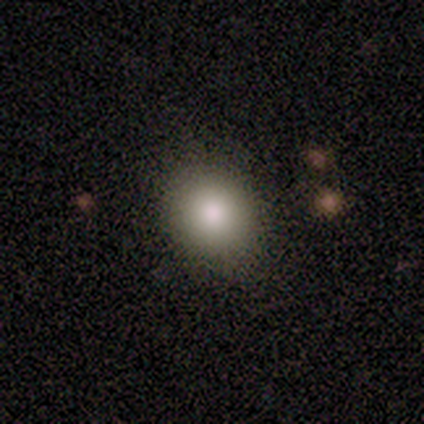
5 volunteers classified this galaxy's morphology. smooth_or_featured: smooth (p=1.00)
how_rounded: round (p=1.00)
merging: none (p=0.80) [alt: minor disturbance p=0.20]